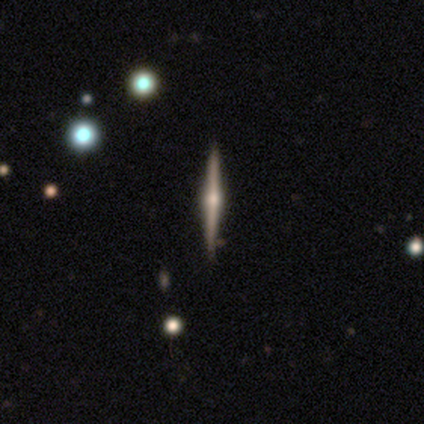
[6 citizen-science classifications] This appears to be a featured or disk galaxy (83%) viewed edge-on (100%) with a rounded central bulge (100%). Merging: none (83%).